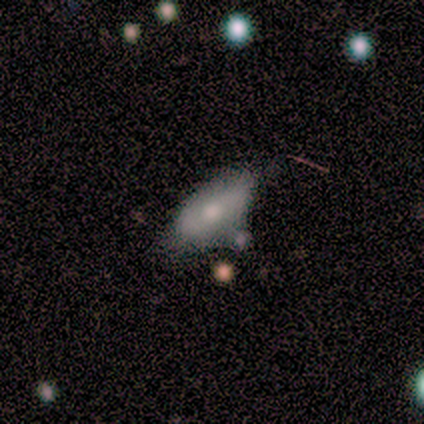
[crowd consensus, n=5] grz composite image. It shows a featured or disk galaxy (60%) viewed edge-on (67%) with a rounded central bulge (100%). Merging: none (40%, tied with minor disturbance).